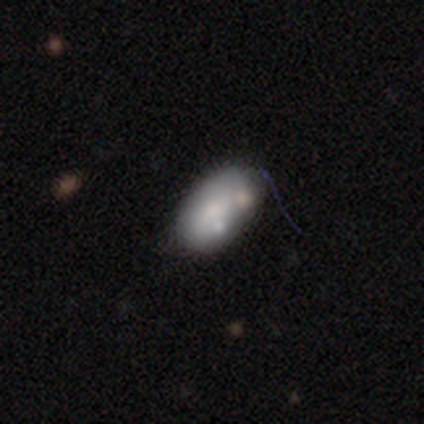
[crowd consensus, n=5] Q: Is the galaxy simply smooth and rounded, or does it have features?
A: smooth — 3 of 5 (60%).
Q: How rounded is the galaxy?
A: in between — 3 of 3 (100%).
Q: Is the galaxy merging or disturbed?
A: minor disturbance — 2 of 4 (50%).